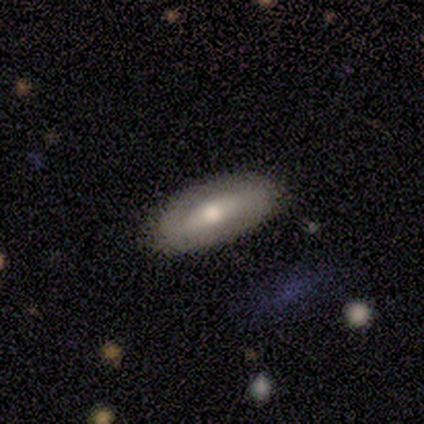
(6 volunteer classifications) A featured or disk galaxy (67%) with a weak bar (67%), no spiral arms (67%) and a small central bulge (67%). Merging: none (50%, tied with minor disturbance).